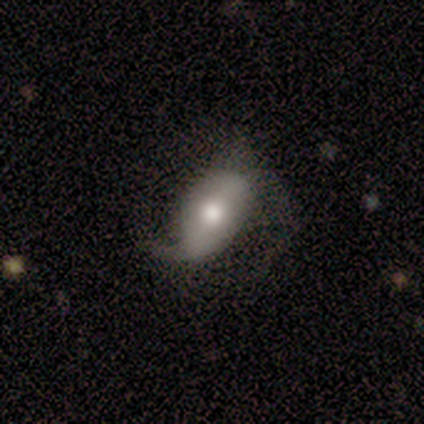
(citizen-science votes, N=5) smooth_or_featured: featured or disk (p=1.00)
disk_edge_on: no (p=0.80) [alt: yes p=0.20]
bar: weak (p=0.50) [alt: strong p=0.25]
has_spiral_arms: yes (p=0.50) [tied with: no p=0.50]
spiral_winding: loose (p=1.00)
spiral_arm_count: 2 (p=1.00)
bulge_size: moderate (p=0.75) [alt: dominant p=0.25]
merging: none (p=0.40) [tied with: major disturbance p=0.40]